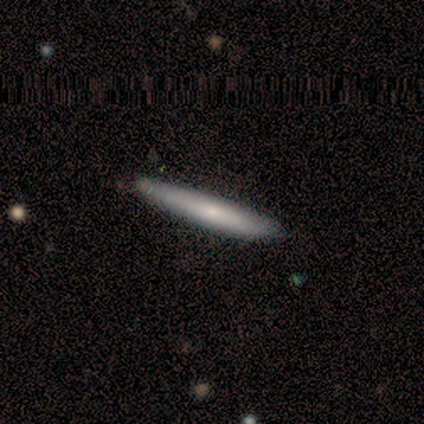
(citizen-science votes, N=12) Smooth or featured? 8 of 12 (67%) said smooth. How rounded? 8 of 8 (100%) said cigar-shaped. Merging? 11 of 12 (92%) said none.